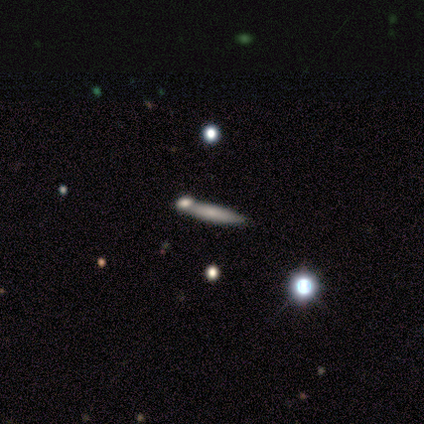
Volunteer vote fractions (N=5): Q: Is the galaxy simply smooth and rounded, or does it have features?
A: smooth — 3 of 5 (60%).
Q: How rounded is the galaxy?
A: cigar-shaped — 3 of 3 (100%).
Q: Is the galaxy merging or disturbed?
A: none — 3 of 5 (60%).